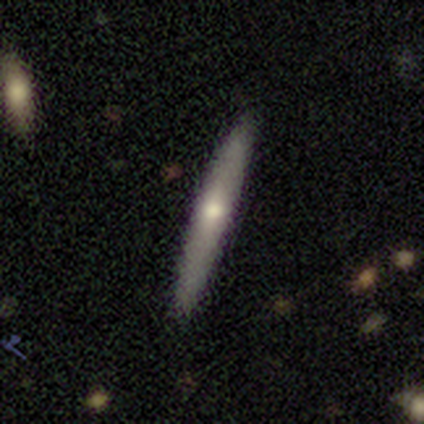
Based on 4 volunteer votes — A featured or disk galaxy (75%) viewed edge-on (100%) with no central bulge (67%). Merging: none (100%).